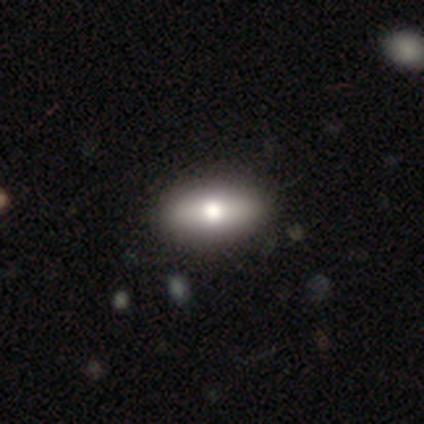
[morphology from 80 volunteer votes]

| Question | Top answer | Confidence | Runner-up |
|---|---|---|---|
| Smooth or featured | smooth | 74% | featured or disk (21%) |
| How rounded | in between | 83% | cigar-shaped (10%) |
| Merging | none | 46% | minor disturbance (4%) |